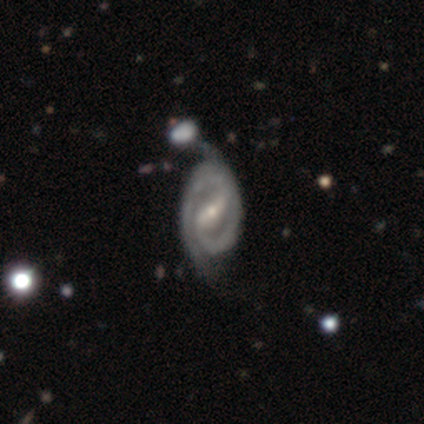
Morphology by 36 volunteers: This is clearly a featured or disk galaxy (86%). It is clearly not viewed edge-on (100%). Bar: likely strong (65%). Spiral arm pattern: clearly yes (100%). Spiral arm count: likely 2 (77%). Spiral winding: likely tight (71%). Central bulge: likely small (68%). Merging: possibly none (54%).